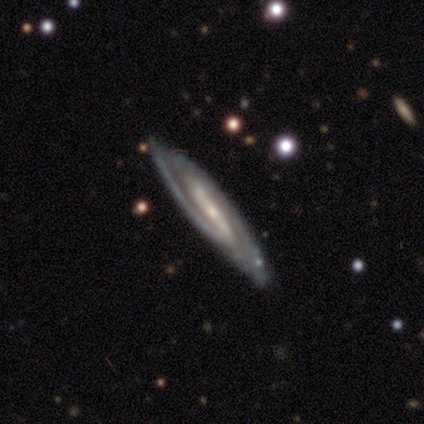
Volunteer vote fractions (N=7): Smooth or featured: featured or disk — 86% (smooth — 14%)
Edge-on disk: no — 67% (yes — 33%)
Bar: strong — 100%
Spiral arms: yes — 75% (no — 25%)
Spiral winding: tight — 33% (tied with medium — 33%; loose — 33%)
Spiral arm count: 2 — 67% (can't tell — 33%)
Bulge size: small — 75% (moderate — 25%)
Merging: none — 100%